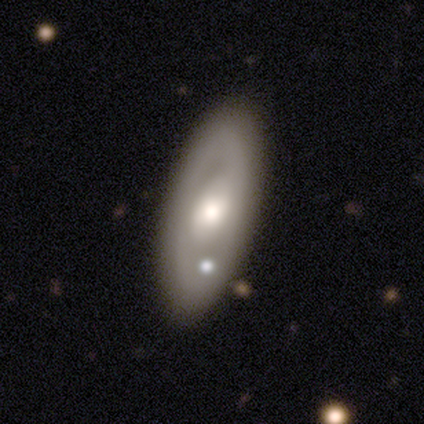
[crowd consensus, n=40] This is likely a featured or disk galaxy (60%). It is likely not viewed edge-on (79%). Bar: marginally weak (42%). Spiral arm pattern: clearly no (84%). Central bulge: likely moderate (68%). Merging: likely none (73%).